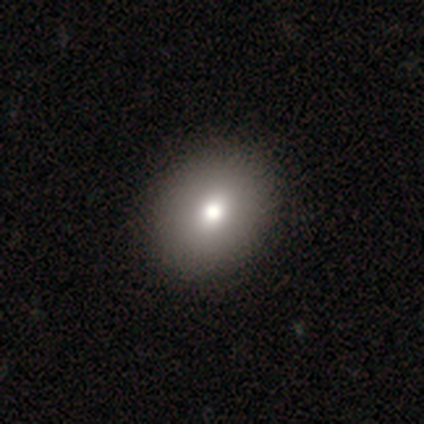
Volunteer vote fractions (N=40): This appears to be a smooth galaxy with no disk features (68%) that is in between round and cigar-shaped (67%). Merging: none (79%).